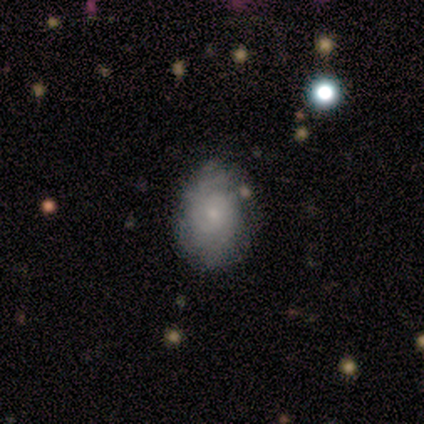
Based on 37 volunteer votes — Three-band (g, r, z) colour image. It shows a featured or disk galaxy (59%) with no bar (82%), medium (53%) spiral arms (77%) and a small central bulge (77%). Merging: none (63%).